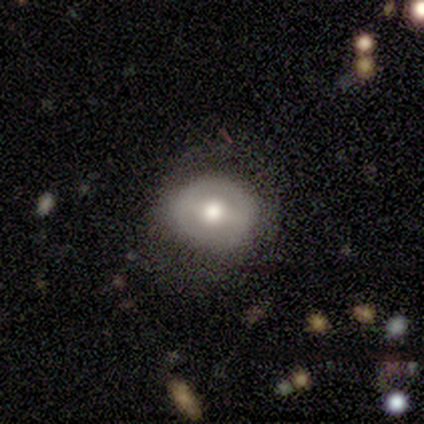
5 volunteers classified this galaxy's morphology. This is likely a featured or disk galaxy (60%). It is clearly not viewed edge-on (100%). Bar: likely strong (67%). Spiral arm pattern: likely no (67%). Central bulge: clearly moderate (100%). Merging: clearly none (100%).